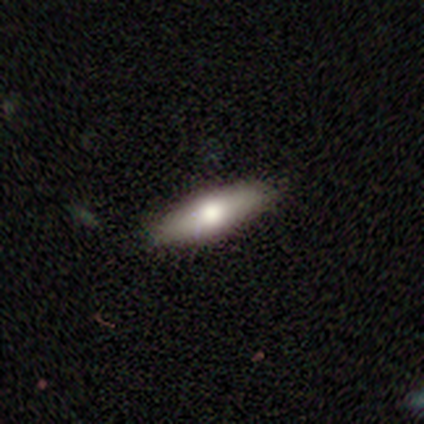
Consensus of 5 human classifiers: smooth_or_featured: featured or disk (p=0.80) [alt: smooth p=0.20]
disk_edge_on: yes (p=0.75) [alt: no p=0.25]
edge_on_bulge: rounded (p=1.00)
merging: none (p=0.80) [alt: major disturbance p=0.20]